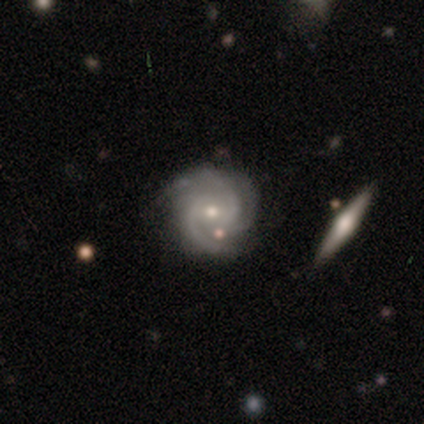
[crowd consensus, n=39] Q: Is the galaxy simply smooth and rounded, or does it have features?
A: featured or disk — 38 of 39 (97%).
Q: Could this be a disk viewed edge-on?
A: no — 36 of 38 (95%).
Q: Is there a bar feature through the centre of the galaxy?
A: no — 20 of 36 (56%).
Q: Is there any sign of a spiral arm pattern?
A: yes — 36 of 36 (100%).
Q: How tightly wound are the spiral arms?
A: tight — 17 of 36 (47%, tied with medium).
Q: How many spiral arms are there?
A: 3 — 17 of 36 (47%).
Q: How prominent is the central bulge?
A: moderate — 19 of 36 (53%).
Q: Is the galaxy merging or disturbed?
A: none — 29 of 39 (74%).